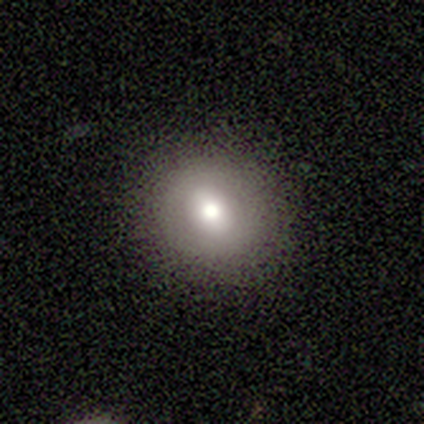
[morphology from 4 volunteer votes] smooth 50% (tied), star or artifact 50% (tied), featured or disk 0%. Down the decision tree: how rounded — round (100%); merging — none (50%, tied with major disturbance).